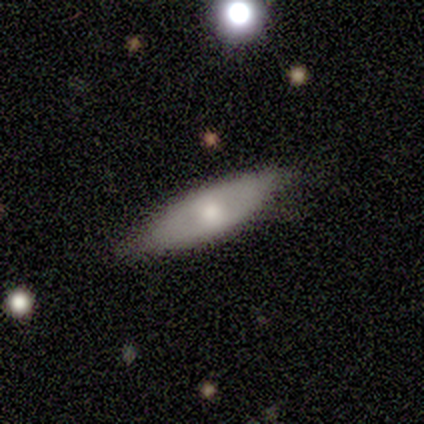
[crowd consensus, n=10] Q: Smooth or featured?
A: smooth (60%); runner-up: featured or disk (40%)
Q: How rounded?
A: in between (67%); runner-up: cigar-shaped (33%)
Q: Merging?
A: none (50%); runner-up: minor disturbance (40%)